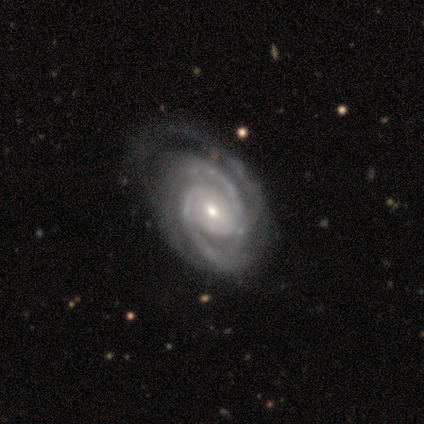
Smooth or featured? featured or disk (94%)
Edge-on disk? no (99%)
Bar? no (71%)
Spiral arms? yes (100%)
Spiral winding? tight (66%)
Spiral arm count? 3 (51%)
Bulge size? moderate (48%, tied with small)
Merging? none (53%)